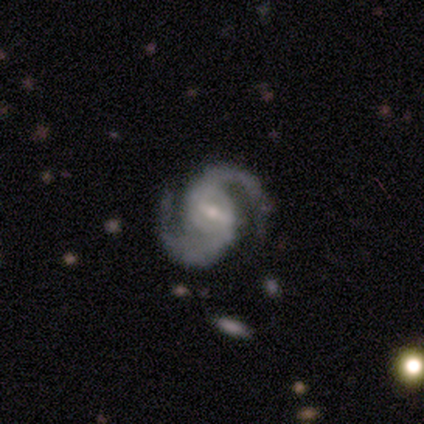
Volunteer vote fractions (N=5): Smooth or featured: featured or disk — 100%
Edge-on disk: no — 100%
Bar: strong — 60% (weak — 40%)
Spiral arms: yes — 100%
Spiral winding: medium — 80% (loose — 20%)
Spiral arm count: 2 — 100%
Bulge size: small — 100%
Merging: none — 60% (minor disturbance — 40%)